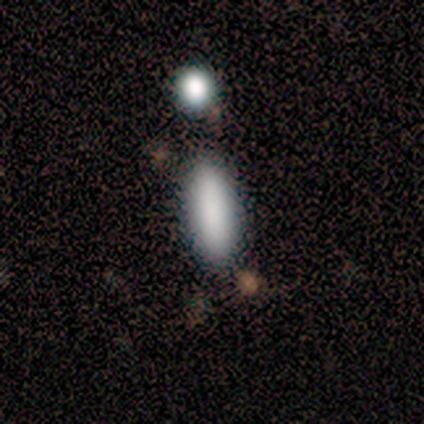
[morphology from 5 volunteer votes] Q: Smooth or featured?
A: smooth (80%); runner-up: star or artifact (20%)
Q: How rounded?
A: in between (75%); runner-up: round (25%)
Q: Merging?
A: none (25%); tied with: minor disturbance (25%); major disturbance (25%); merger (25%)